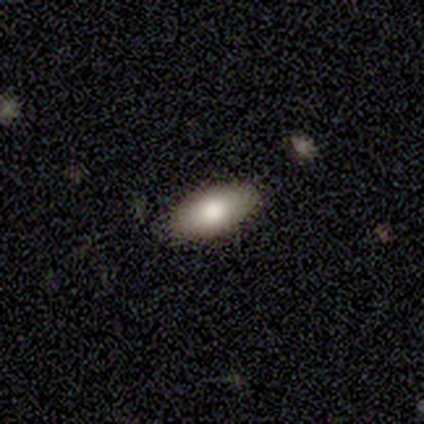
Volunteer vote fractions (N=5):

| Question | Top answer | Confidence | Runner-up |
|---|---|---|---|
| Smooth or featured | smooth | 60% | featured or disk (20%) |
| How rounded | round | 33% | tied: in between (33%), cigar-shaped (33%) |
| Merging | none | 100% | — |